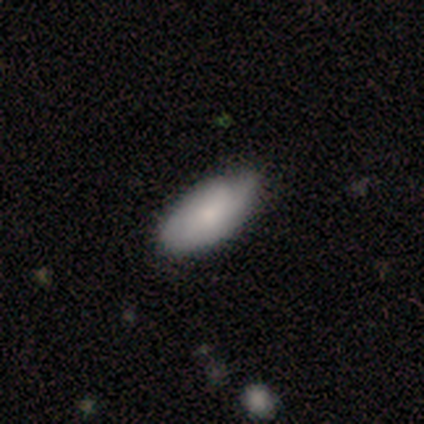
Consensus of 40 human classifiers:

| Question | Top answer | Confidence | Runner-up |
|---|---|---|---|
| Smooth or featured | smooth | 70% | featured or disk (28%) |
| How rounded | in between | 93% | cigar-shaped (7%) |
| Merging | none | 51% | minor disturbance (26%) |